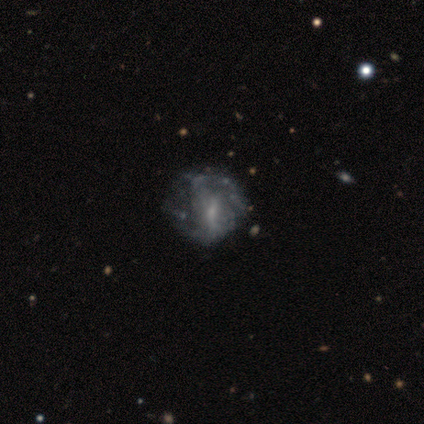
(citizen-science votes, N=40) Morphology: type=featured or disk (85%); edge-on=no (100%); bar=weak (44%); spiral arms=no (56%); bulge=small (59%); merging=none (50%).